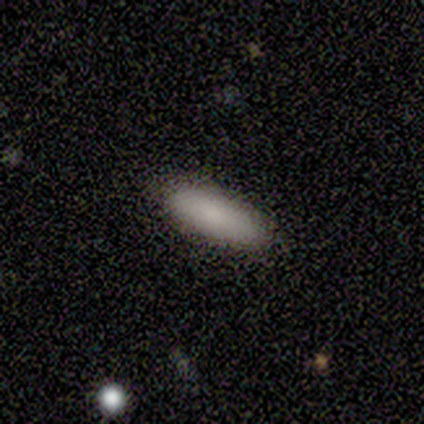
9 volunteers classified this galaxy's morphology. Overall: smooth (89%). How rounded: in between (50%, tied with cigar-shaped). Merging: none (67%; minor disturbance 33%).